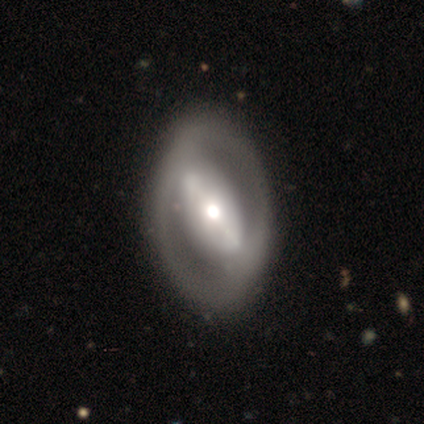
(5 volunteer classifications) Volunteers were most divided on "spiral arms": no: 60%, yes: 40%. More confident: smooth or featured — featured or disk (100%); edge-on disk — no (100%); merging — none (100%); bulge size — large (60%); bar — strong (60%).